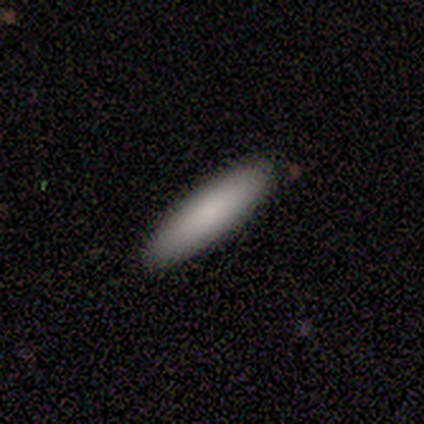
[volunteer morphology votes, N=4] smooth_or_featured: smooth (p=0.75) [alt: featured or disk p=0.25]
how_rounded: cigar-shaped (p=0.67) [alt: in between p=0.33]
merging: none (p=1.00)